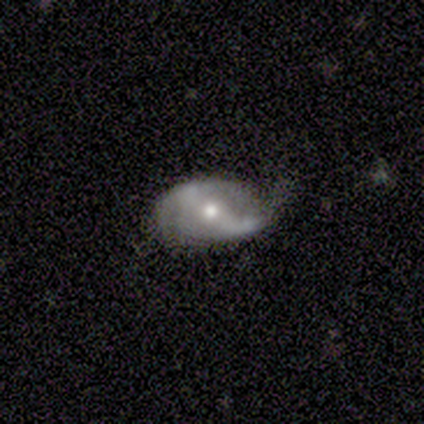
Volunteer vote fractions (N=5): Volunteers were most divided on "merging": minor disturbance: 60%, none: 40%, major disturbance: 0%, merger: 0%. More confident: smooth or featured — featured or disk (100%); bar — strong (100%); spiral arms — yes (100%); spiral arm count — 2 (100%); bulge size — moderate (100%); edge-on disk — no (80%); spiral winding — loose (75%).